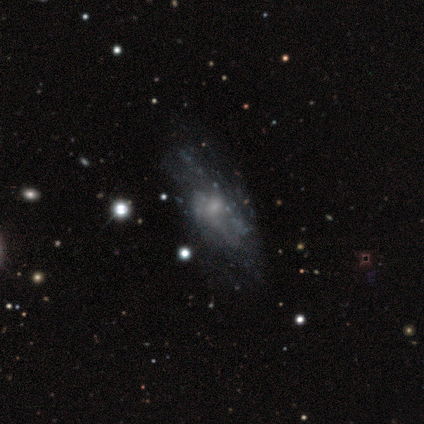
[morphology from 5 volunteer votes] This is clearly a featured or disk galaxy (80%). It is clearly not viewed edge-on (100%). Bar: clearly no (100%). Spiral arm pattern: likely yes (75%). Spiral arm count: clearly can't tell (100%). Spiral winding: likely medium (67%). Central bulge: clearly small (100%). Merging: clearly none (80%).